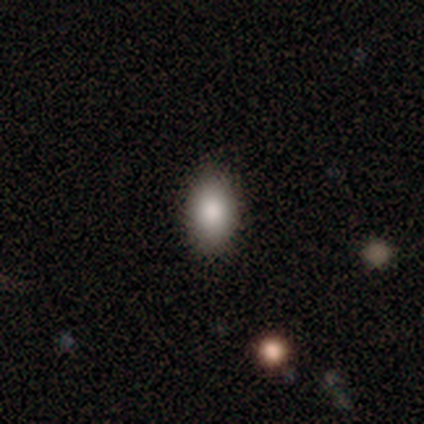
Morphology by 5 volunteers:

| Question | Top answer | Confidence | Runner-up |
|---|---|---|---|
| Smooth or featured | smooth | 40% | tied: featured or disk (40%) |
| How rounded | in between | 100% | — |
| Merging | none | 100% | — |